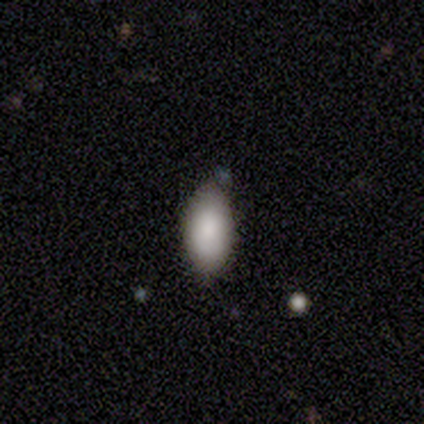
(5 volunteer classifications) Consensus on every question: smooth or featured — smooth (100%); how rounded — in between (100%); merging — none (100%).